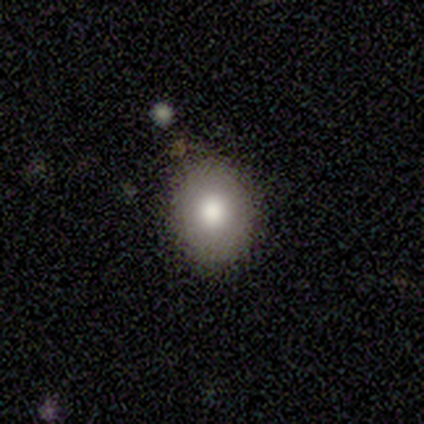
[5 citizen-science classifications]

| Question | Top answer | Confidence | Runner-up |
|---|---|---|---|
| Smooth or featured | smooth | 80% | featured or disk (20%) |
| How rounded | in between | 75% | round (25%) |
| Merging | none | 100% | — |